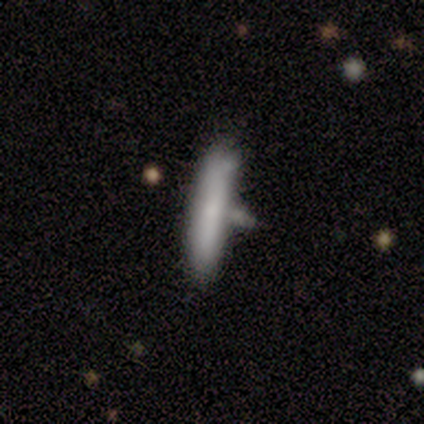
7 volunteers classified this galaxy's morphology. smooth_or_featured: smooth (p=0.86) [alt: featured or disk p=0.14]
how_rounded: cigar-shaped (p=1.00)
merging: none (p=0.57) [alt: major disturbance p=0.29]